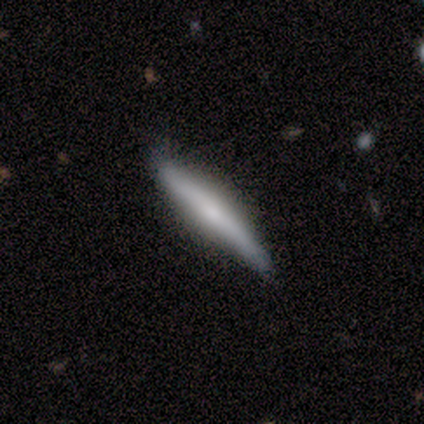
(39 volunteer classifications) featured or disk 49%, smooth 46%, star or artifact 5%. Down the decision tree: edge-on disk — yes (95%); edge-on bulge — rounded (50%); merging — none (73%).